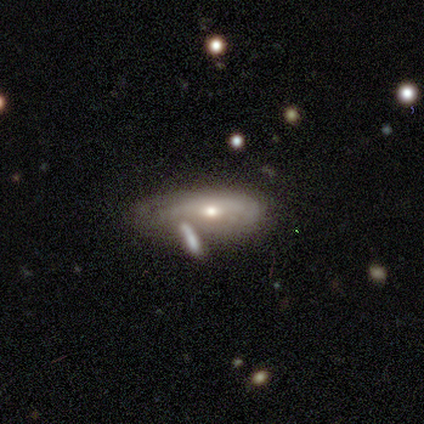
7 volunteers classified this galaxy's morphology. Q: Smooth or featured?
A: featured or disk (71%); runner-up: smooth (29%)
Q: Edge-on disk?
A: no (80%); runner-up: yes (20%)
Q: Bar?
A: no (75%); runner-up: weak (25%)
Q: Spiral arms?
A: yes (50%); tied with: no (50%)
Q: Spiral winding?
A: tight (50%); tied with: medium (50%)
Q: Spiral arm count?
A: can't tell (100%)
Q: Bulge size?
A: small (75%); runner-up: moderate (25%)
Q: Merging?
A: none (29%); tied with: minor disturbance (29%); major disturbance (29%)